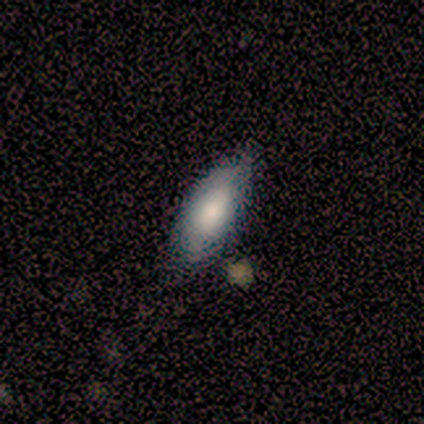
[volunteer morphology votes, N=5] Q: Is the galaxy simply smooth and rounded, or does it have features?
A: smooth — 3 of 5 (60%).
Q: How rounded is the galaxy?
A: in between — 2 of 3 (67%).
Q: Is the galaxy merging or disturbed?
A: none — 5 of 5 (100%).